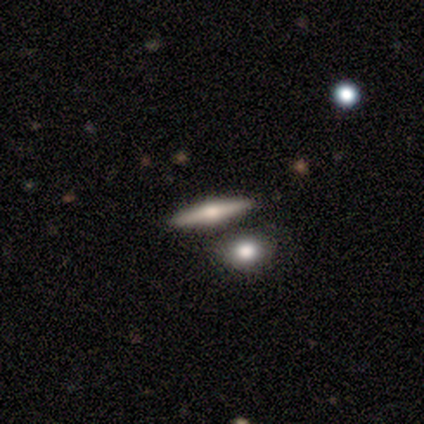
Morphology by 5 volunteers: A featured or disk galaxy (80%) viewed edge-on (100%) with a rounded central bulge (100%). Merging: none (50%).